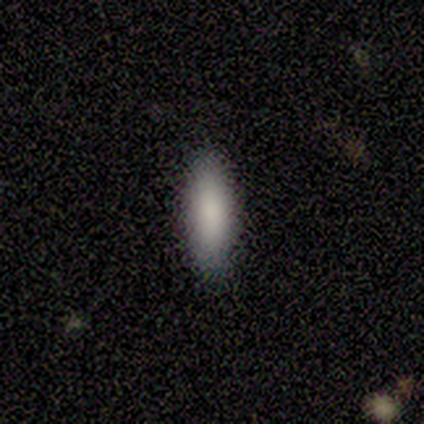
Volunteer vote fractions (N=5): Q: Smooth or featured?
A: smooth (100%)
Q: How rounded?
A: in between (60%); runner-up: cigar-shaped (40%)
Q: Merging?
A: none (100%)